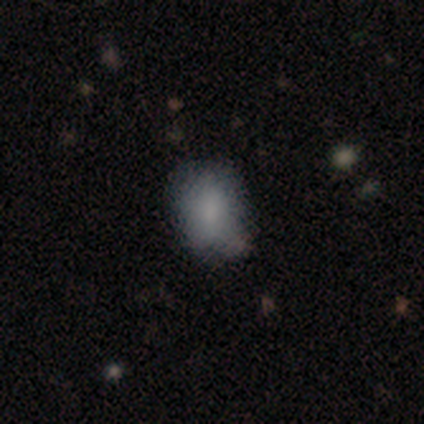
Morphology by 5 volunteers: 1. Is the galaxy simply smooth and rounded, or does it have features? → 60% smooth, 40% star or artifact, 0% featured or disk.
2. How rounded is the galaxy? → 67% in between, 33% round, 0% cigar-shaped.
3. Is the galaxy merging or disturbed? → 100% none, 0% minor disturbance, 0% major disturbance, 0% merger.